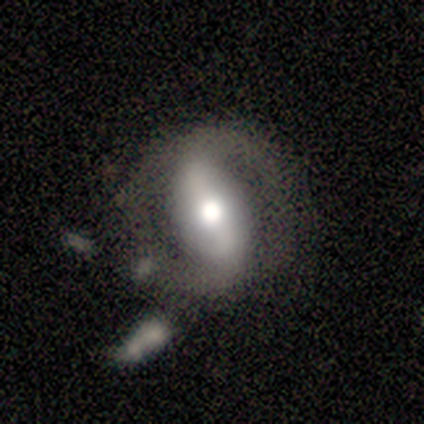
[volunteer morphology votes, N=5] Smooth or featured: smooth — 60% (featured or disk — 40%)
How rounded: in between — 67% (round — 33%)
Merging: none — 60% (major disturbance — 20%)